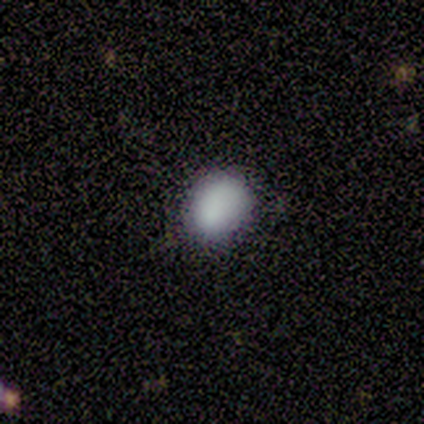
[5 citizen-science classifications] Morphology: type=smooth (100%); roundness=in between (60%); merging=none (60%).